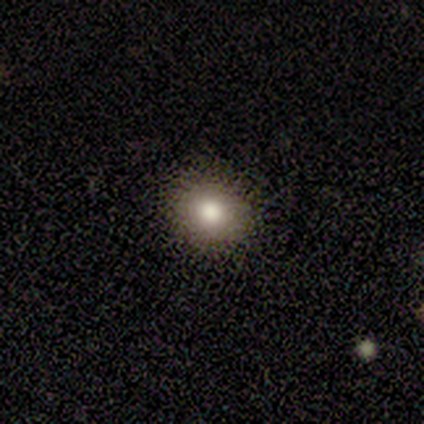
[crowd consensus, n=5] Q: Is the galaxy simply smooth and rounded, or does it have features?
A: smooth — 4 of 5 (80%).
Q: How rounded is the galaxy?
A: round — 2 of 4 (50%, tied with in between).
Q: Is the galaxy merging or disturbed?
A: none — 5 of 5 (100%).